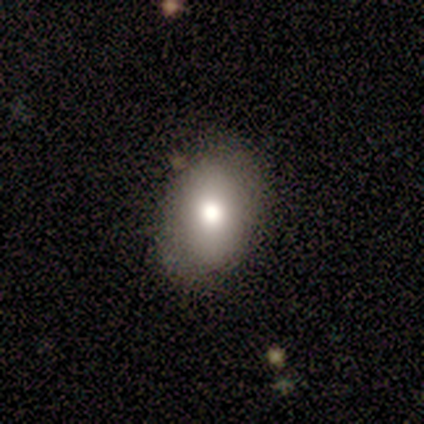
Smooth or featured: smooth — 80% (featured or disk — 20%)
How rounded: in between — 100%
Merging: none — 80% (minor disturbance — 20%)